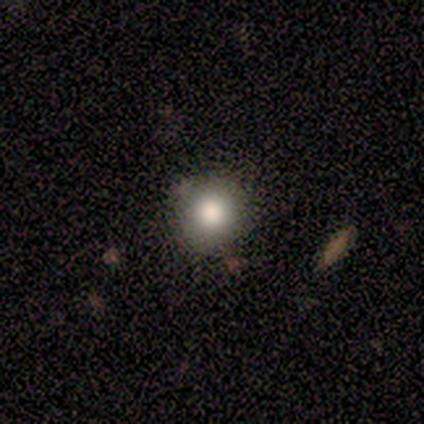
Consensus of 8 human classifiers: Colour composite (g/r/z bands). It shows a smooth galaxy with no disk features (50%) that is round (100%). Merging: none (80%).